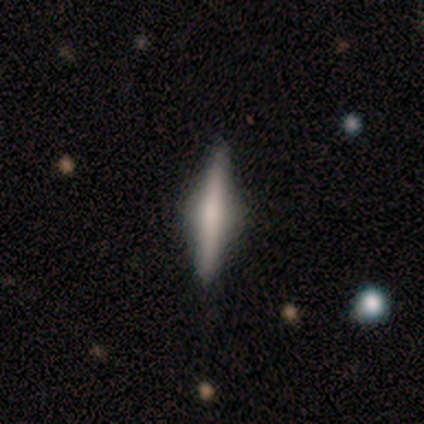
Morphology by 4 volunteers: Smooth or featured? 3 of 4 (75%) said featured or disk. Edge-on disk? 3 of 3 (100%) said yes. Edge-on bulge? 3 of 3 (100%) said rounded. Merging? 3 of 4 (75%) said none.